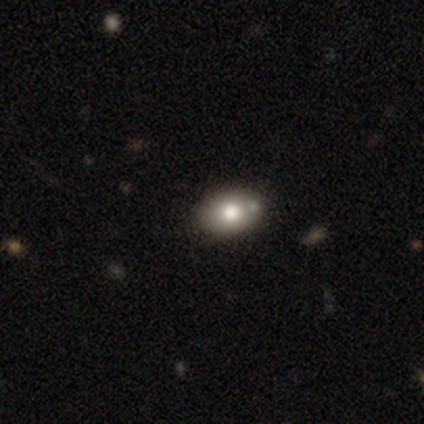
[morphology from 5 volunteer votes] Smooth or featured? smooth (100%)
How rounded? in between (80%)
Merging? none (60%)